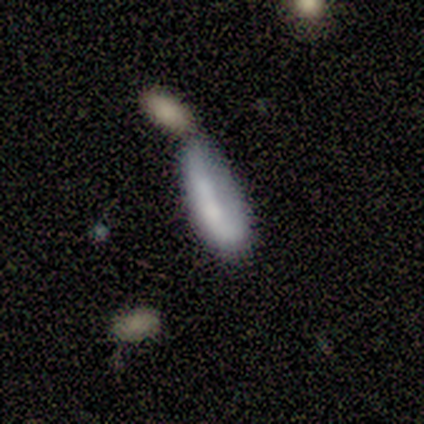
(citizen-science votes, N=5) A smooth galaxy with no disk features (60%) that is cigar-shaped (67%). Merging: merger (60%).